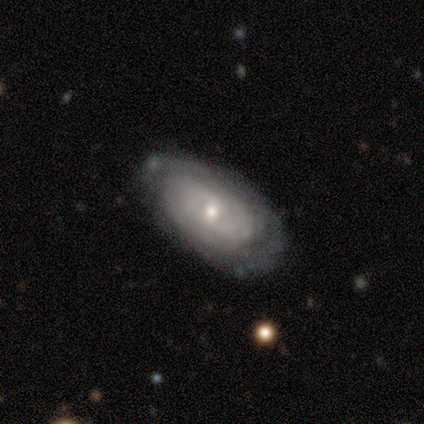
featured or disk 86%, smooth 8%, star or artifact 5%. Down the decision tree: edge-on disk — no (94%); bar — no (53%); spiral arms — yes (87%); spiral arm count — can't tell (58%); spiral winding — tight (69%); bulge size — moderate (57%); merging — none (60%).